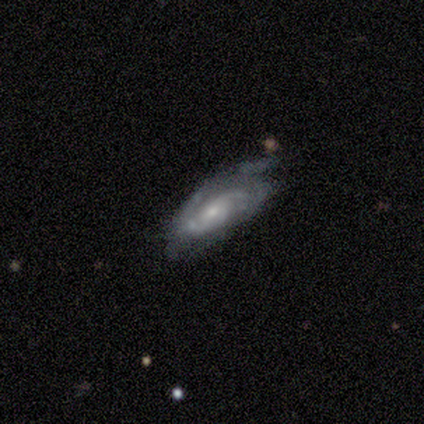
Smooth or featured: featured or disk — 100%
Edge-on disk: no — 100%
Bar: no — 100%
Spiral arms: yes — 80% (no — 20%)
Spiral winding: medium — 75% (loose — 25%)
Spiral arm count: 2 — 75% (3 — 25%)
Bulge size: moderate — 40% (tied with small — 40%)
Merging: none — 40% (tied with minor disturbance — 40%)